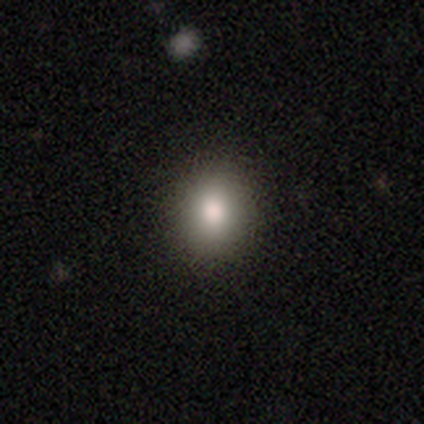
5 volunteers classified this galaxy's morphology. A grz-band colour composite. It shows a smooth galaxy with no disk features (100%) that is round (60%). Merging: none (100%).